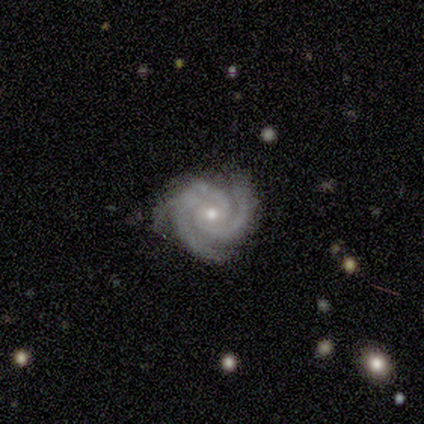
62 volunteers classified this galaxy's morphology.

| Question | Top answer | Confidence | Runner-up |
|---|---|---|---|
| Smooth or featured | featured or disk | 89% | star or artifact (8%) |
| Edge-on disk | no | 100% | — |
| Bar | no | 69% | weak (22%) |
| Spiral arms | yes | 100% | — |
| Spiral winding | tight | 87% | medium (13%) |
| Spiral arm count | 3 | 60% | 2 (35%) |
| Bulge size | small | 55% | moderate (45%) |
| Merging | none | 75% | minor disturbance (23%) |